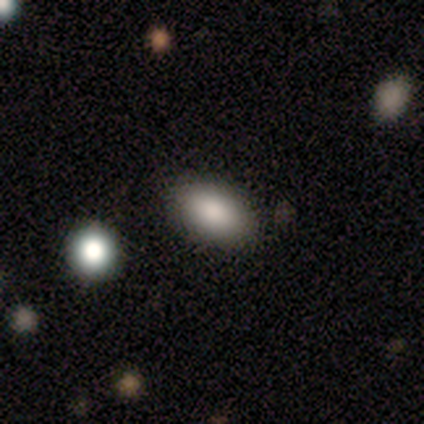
This appears to be a smooth galaxy with no disk features (80%) that is in between round and cigar-shaped (100%). Merging: none (75%).